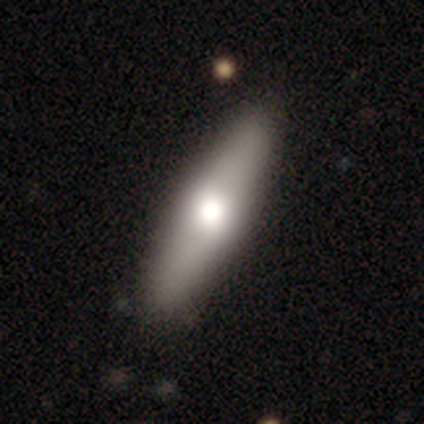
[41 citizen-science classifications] Morphology: type=smooth (68%); roundness=cigar-shaped (64%); merging=none (61%).